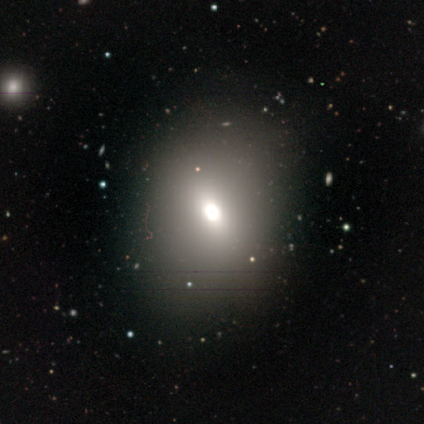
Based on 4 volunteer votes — Overall: star or artifact (75%).